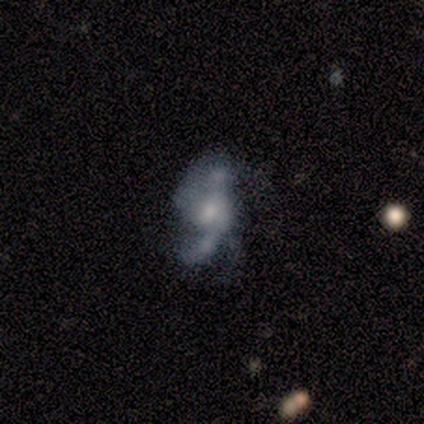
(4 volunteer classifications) Volunteers were most divided on "bulge size": moderate: 50%, small: 25%, none: 25%, dominant: 0%, large: 0%. More confident: smooth or featured — featured or disk (100%); edge-on disk — no (100%); bar — no (75%); spiral arms — yes (75%); merging — none (75%); spiral winding — loose (67%); spiral arm count — 2 (67%).